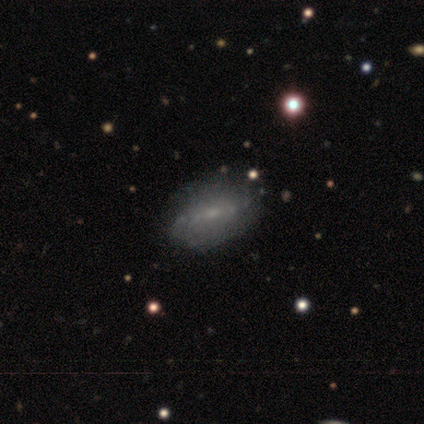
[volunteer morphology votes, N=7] Smooth or featured? 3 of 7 (43%, tied with featured or disk) said smooth. How rounded? 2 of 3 (67%) said in between. Merging? 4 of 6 (67%) said minor disturbance.